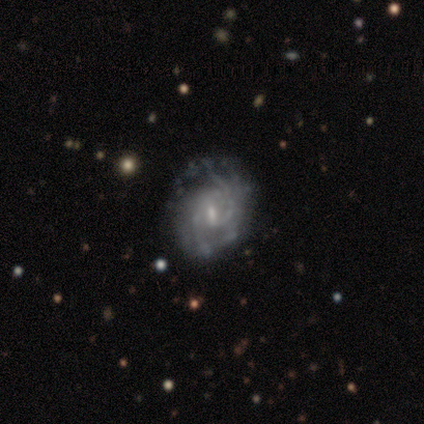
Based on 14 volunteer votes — A featured or disk galaxy (93%) with a weak bar (69%), 2 (64%) tight (36%, tied with medium) spiral arms (85%) and a small central bulge (77%).

Vote fractions:
- Smooth or featured? featured or disk: 93% / star or artifact: 7% / smooth: 0%
- Edge-on disk? no: 100% / yes: 0%
- Bar? weak: 69% / no: 31% / strong: 0%
- Spiral arms? yes: 85% / no: 15%
- Spiral winding? tight: 36% (tied) / medium: 36% (tied) / loose: 27%
- Spiral arm count? 2: 64% / can't tell: 27% / 3: 9% / 1: 0% / 4: 0% / more than 4: 0%
- Bulge size? small: 77% / moderate: 23% / dominant: 0% / large: 0% / none: 0%
- Merging? none: 85% / minor disturbance: 8% / major disturbance: 8% / merger: 0%